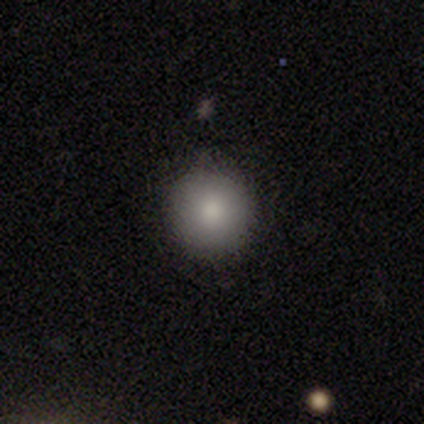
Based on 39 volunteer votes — A smooth galaxy with no disk features (90%) that is round (100%).

Vote fractions:
- Smooth or featured? smooth: 90% / featured or disk: 5% / star or artifact: 5%
- How rounded? round: 100% / in between: 0% / cigar-shaped: 0%
- Merging? none: 86% / major disturbance: 8% / minor disturbance: 5% / merger: 0%